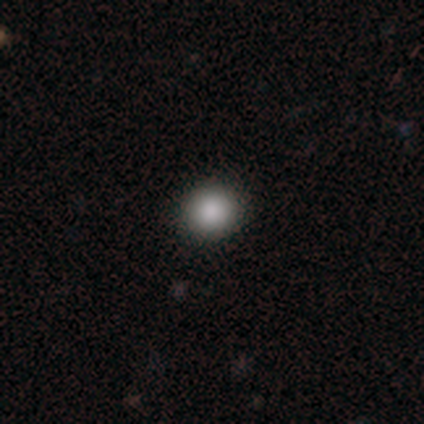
A smooth galaxy with no disk features (80%) that is round (75%). Merging: none (100%).